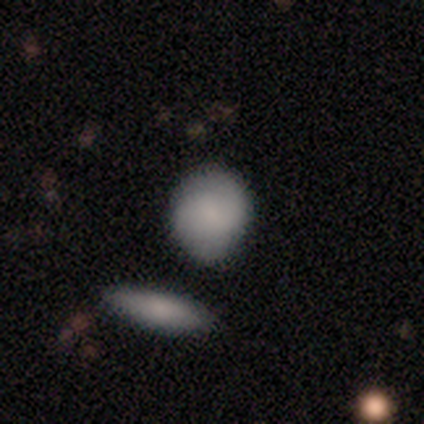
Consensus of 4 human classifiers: This is likely a smooth galaxy (75%). How rounded: marginally round (33%, tied with in between and cigar-shaped). Merging: marginally none (33%, tied with minor disturbance and major disturbance).